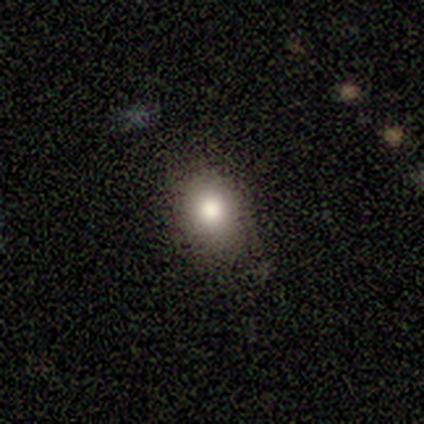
Smooth or featured? 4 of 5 (80%) said smooth. How rounded? 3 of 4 (75%) said in between. Merging? 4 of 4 (100%) said none.